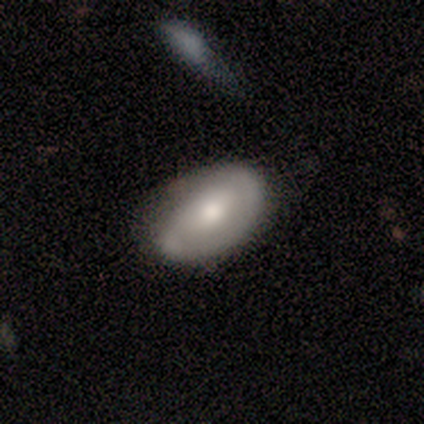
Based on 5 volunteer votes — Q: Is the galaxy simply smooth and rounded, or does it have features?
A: featured or disk — 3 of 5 (60%).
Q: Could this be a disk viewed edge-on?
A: no — 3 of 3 (100%).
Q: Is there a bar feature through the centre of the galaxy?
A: no — 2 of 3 (67%).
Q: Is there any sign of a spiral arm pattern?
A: no — 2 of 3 (67%).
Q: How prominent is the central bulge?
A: moderate — 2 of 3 (67%).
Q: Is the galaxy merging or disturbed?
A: none — 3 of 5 (60%).